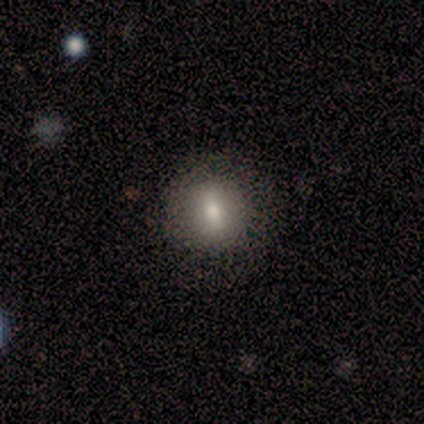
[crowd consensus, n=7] smooth 71%, featured or disk 14%, star or artifact 14%. Down the decision tree: how rounded — round (60%); merging — none (67%).